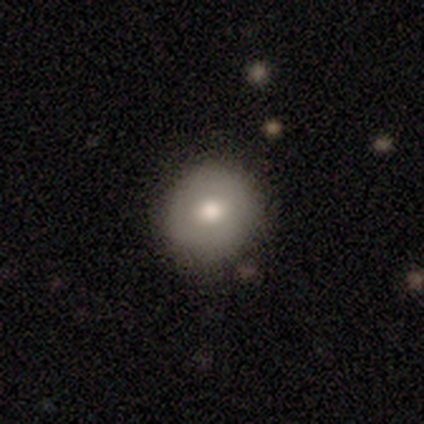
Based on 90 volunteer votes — smooth 70%, featured or disk 19%, star or artifact 11%. Down the decision tree: how rounded — round (92%); merging — none (84%).